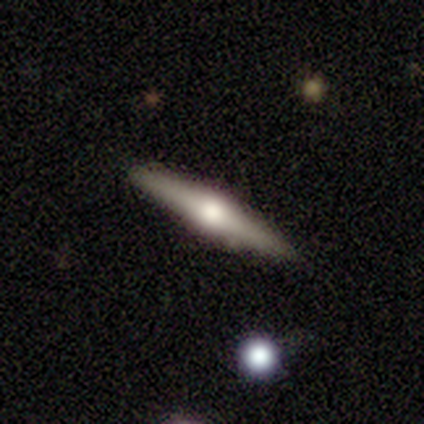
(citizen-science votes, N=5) Smooth or featured? 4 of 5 (80%) said featured or disk. Edge-on disk? 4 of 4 (100%) said yes. Edge-on bulge? 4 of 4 (100%) said rounded. Merging? 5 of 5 (100%) said none.